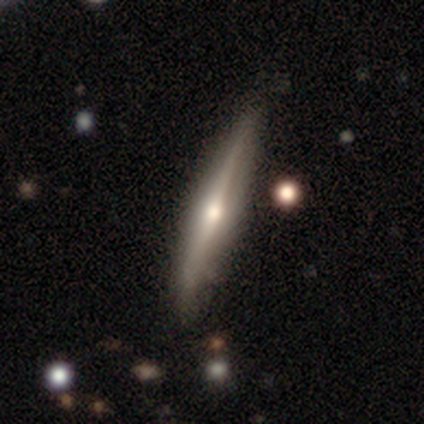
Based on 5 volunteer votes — A featured or disk galaxy (100%) viewed edge-on (100%) with a rounded central bulge (80%). Merging: minor disturbance (60%).